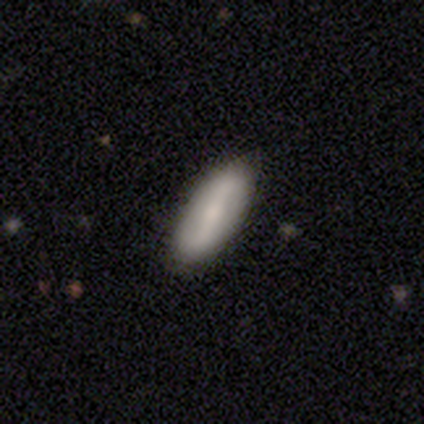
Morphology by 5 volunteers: A smooth galaxy with no disk features (60%) that is in between round and cigar-shaped (67%).

Vote fractions:
- Smooth or featured? smooth: 60% / featured or disk: 40% / star or artifact: 0%
- How rounded? in between: 67% / cigar-shaped: 33% / round: 0%
- Merging? none: 100% / minor disturbance: 0% / major disturbance: 0% / merger: 0%